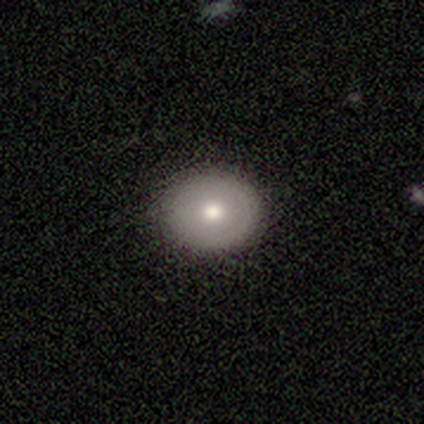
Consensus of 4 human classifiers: smooth-or-featured: smooth: 75% | featured or disk: 25% | star or artifact: 0%
  how-rounded: round: 67% | in between: 33% | cigar-shaped: 0%
  merging: none: 100% | minor disturbance: 0% | major disturbance: 0% | merger: 0%